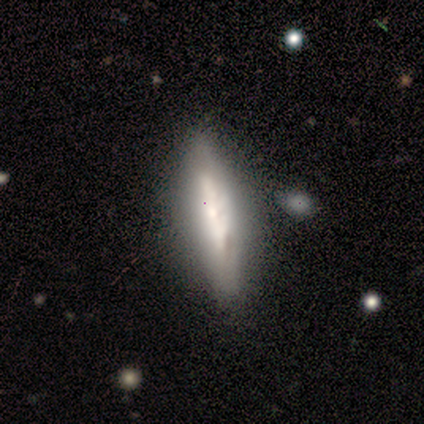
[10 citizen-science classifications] Overall: featured or disk (50%; smooth 40%). Edge-on disk: no (60%; yes 40%). Bar: no (67%; weak 33%). Spiral arms: no (67%; yes 33%). Bulge size: small (67%; large 33%). Merging: none (100%).